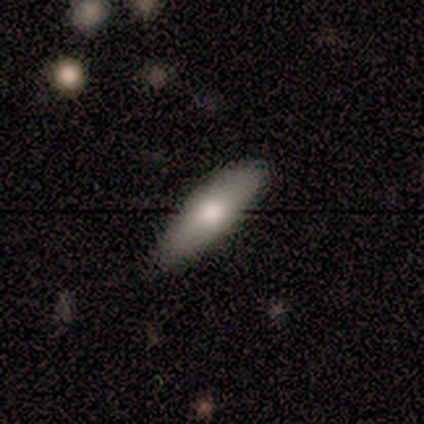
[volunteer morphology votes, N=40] Smooth or featured? smooth (62%)
How rounded? in between (68%)
Merging? none (77%)